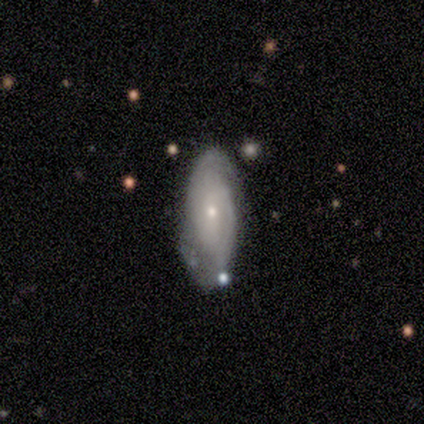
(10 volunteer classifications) This appears to be a featured or disk galaxy (80%) with no bar (75%), 2 (67%) tight (83%) spiral arms (75%) and a moderate central bulge (62%). Merging: none (50%).